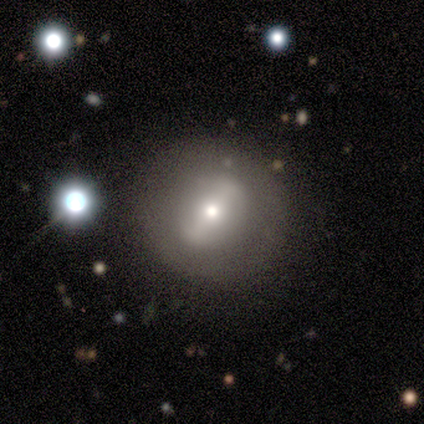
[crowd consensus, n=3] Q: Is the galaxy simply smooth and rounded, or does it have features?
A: featured or disk — 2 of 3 (67%).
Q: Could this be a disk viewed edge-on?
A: no — 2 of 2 (100%).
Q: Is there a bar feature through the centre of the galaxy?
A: strong — 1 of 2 (50%, tied with weak).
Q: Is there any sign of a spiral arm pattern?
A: no — 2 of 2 (100%).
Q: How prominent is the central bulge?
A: moderate — 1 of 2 (50%, tied with small).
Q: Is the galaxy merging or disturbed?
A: none — 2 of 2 (100%).